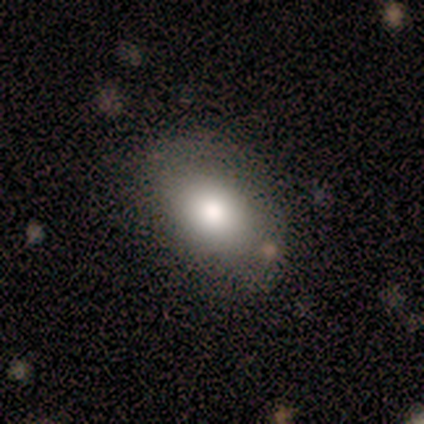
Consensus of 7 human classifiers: Q: Smooth or featured?
A: smooth (57%); runner-up: featured or disk (29%)
Q: How rounded?
A: in between (75%); runner-up: round (25%)
Q: Merging?
A: none (100%)